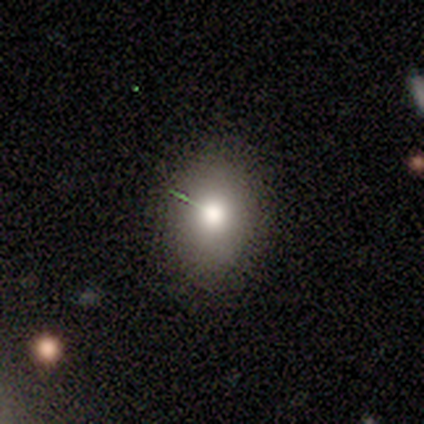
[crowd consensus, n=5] Volunteers were most divided on "how rounded" (2-way tie): round: 50%, in between: 50%, cigar-shaped: 0%. More confident: merging — none (100%); smooth or featured — smooth (80%).